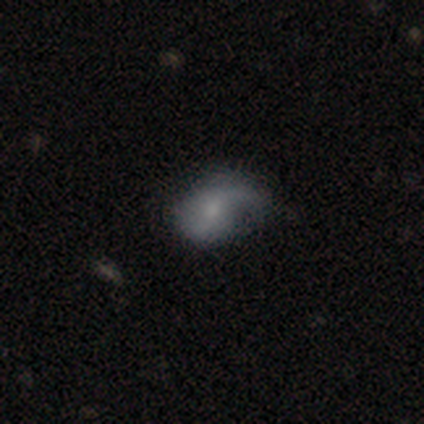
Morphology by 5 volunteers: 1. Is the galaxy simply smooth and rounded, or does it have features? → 60% smooth, 20% featured or disk, 20% star or artifact.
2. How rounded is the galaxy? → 100% in between, 0% round, 0% cigar-shaped.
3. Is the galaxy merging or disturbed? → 50% none, 25% minor disturbance, 25% merger, 0% major disturbance.